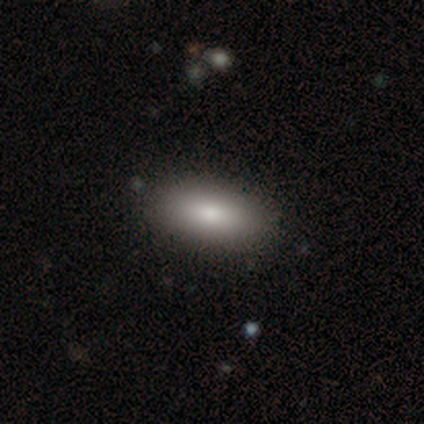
This is clearly a smooth galaxy (100%). How rounded: clearly in between (100%). Merging: clearly none (80%).